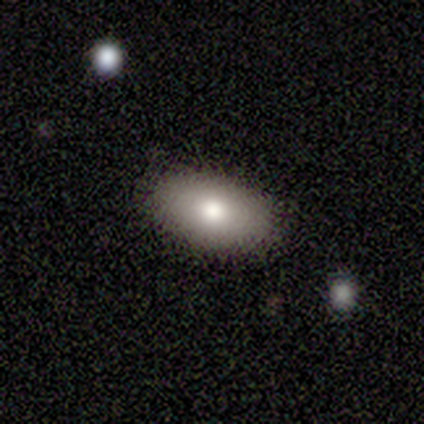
Morphology: type=smooth (100%); roundness=in between (100%); merging=none (100%).